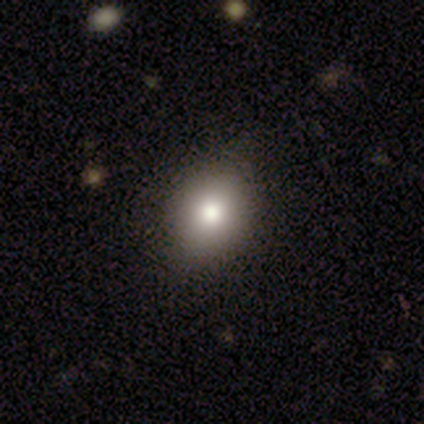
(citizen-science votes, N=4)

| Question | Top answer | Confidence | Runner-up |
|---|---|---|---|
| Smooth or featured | smooth | 100% | — |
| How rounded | in between | 100% | — |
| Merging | none | 100% | — |